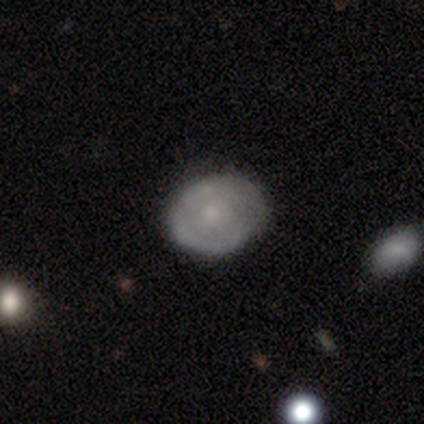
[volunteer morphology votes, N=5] smooth-or-featured: featured or disk: 60% | smooth: 40% | star or artifact: 0%
  disk-edge-on: no: 100% | yes: 0%
    bar: no: 100% | strong: 0% | weak: 0%
    has-spiral-arms: no: 67% | yes: 33%
    bulge-size: small: 67% | moderate: 33% | dominant: 0% | large: 0% | none: 0%
  merging: none: 80% | minor disturbance: 20% | major disturbance: 0% | merger: 0%